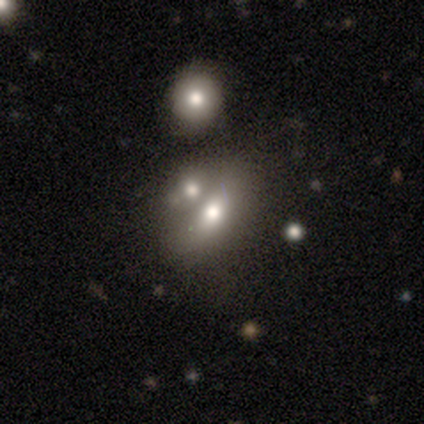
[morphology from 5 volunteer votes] type=smooth (80%); roundness=round (50%, tied with in between); merging=none (40%).